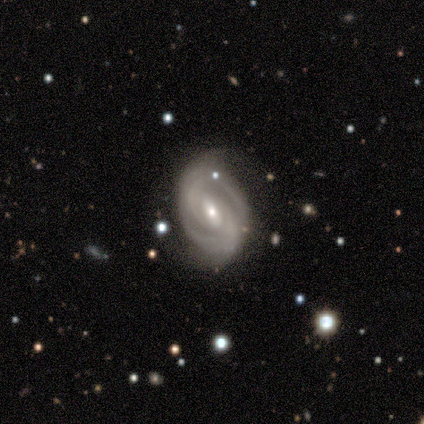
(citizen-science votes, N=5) This appears to be a featured or disk galaxy (100%) with a weak bar (60%), 2 (75%) tight (75%) spiral arms (80%) and a small central bulge (80%). Merging: none (80%).